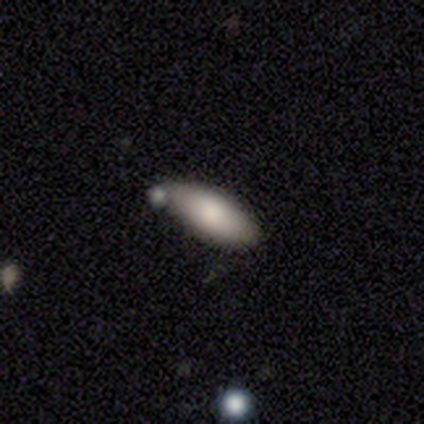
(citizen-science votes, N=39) smooth 82%, featured or disk 10%, star or artifact 8%. Down the decision tree: how rounded — in between (88%); merging — none (78%).